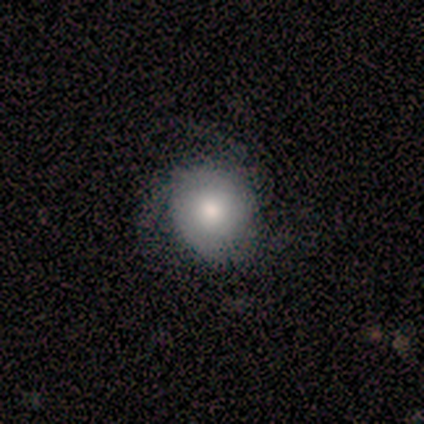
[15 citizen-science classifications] smooth-or-featured: featured or disk: 67% | smooth: 33% | star or artifact: 0%
  disk-edge-on: no: 90% | yes: 10%
    bar: no: 67% | weak: 22% | strong: 11%
    has-spiral-arms: yes: 67% | no: 33%
      spiral-winding: medium: 67% | tight: 33% | loose: 0%
      spiral-arm-count: 3: 83% | can't tell: 17% | 1: 0% | 2: 0% | 4: 0% | more than 4: 0%
    bulge-size: moderate: 56% | large: 33% | small: 11% | dominant: 0% | none: 0%
  merging: none: 80% | minor disturbance: 20% | major disturbance: 0% | merger: 0%